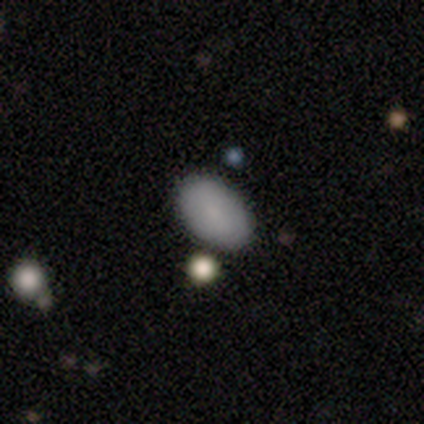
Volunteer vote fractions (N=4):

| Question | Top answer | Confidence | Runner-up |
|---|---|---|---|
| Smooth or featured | smooth | 100% | — |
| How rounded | in between | 100% | — |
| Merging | none | 75% | minor disturbance (25%) |